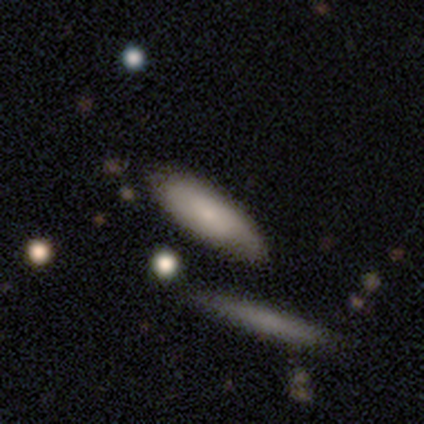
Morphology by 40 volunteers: smooth 60%, featured or disk 35%, star or artifact 5%. Down the decision tree: how rounded — in between (58%); merging — none (74%).